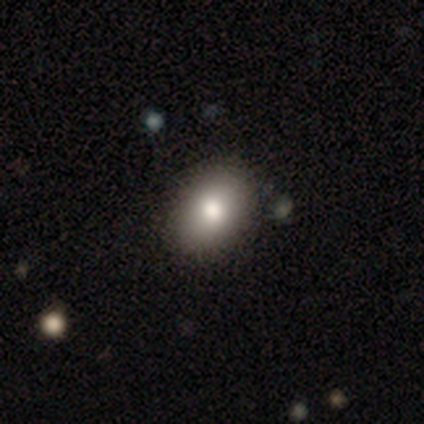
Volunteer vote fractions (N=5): Smooth or featured? 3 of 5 (60%) said smooth. How rounded? 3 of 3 (100%) said in between. Merging? 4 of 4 (100%) said none.